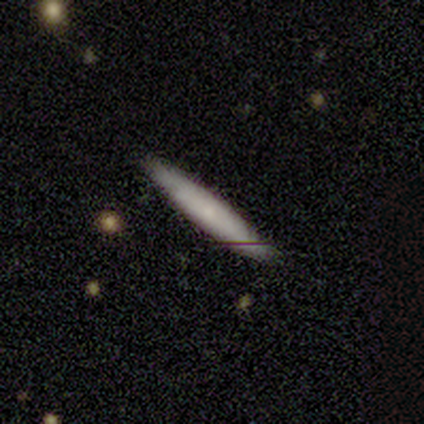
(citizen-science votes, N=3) A smooth galaxy with no disk features (100%) that is cigar-shaped (100%). Merging: none (100%).